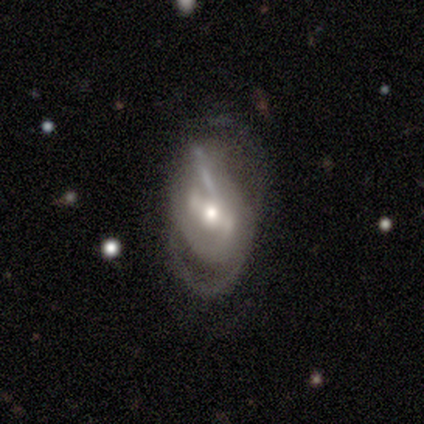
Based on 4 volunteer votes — Volunteers were most divided on "spiral winding" (3-way tie): tight: 33%, medium: 33%, loose: 33%; "merging" (2-way tie): minor disturbance: 50%, major disturbance: 50%, none: 0%, merger: 0%. More confident: smooth or featured — featured or disk (100%); edge-on disk — no (100%); bulge size — moderate (100%); spiral arms — yes (75%); spiral arm count — 2 (67%); bar — strong (50%).